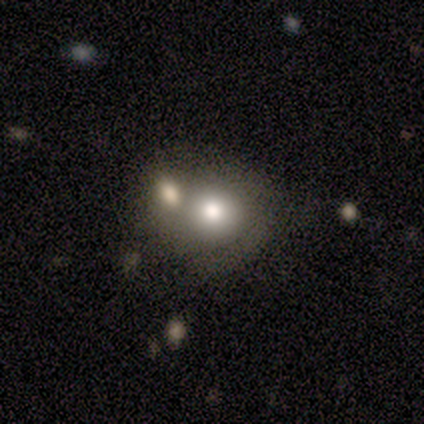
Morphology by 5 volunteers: A smooth galaxy with no disk features (40%, tied with featured or disk) that is round (100%).

Vote fractions:
- Smooth or featured? smooth: 40% (tied) / featured or disk: 40% (tied) / star or artifact: 20%
- How rounded? round: 100% / in between: 0% / cigar-shaped: 0%
- Merging? merger: 75% / none: 25% / minor disturbance: 0% / major disturbance: 0%